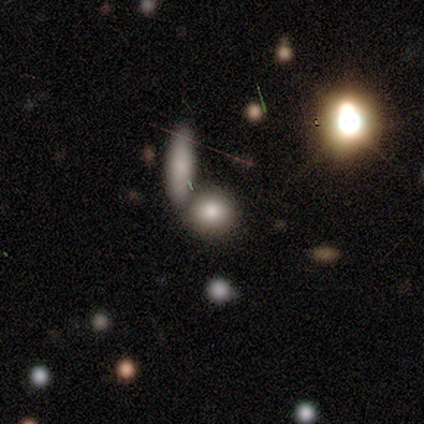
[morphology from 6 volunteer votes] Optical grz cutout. It shows a star or artifact, not a galaxy (50%).